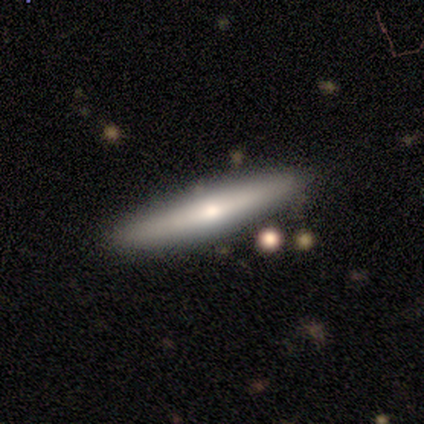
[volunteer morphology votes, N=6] This appears to be a smooth galaxy with no disk features (50%, tied with featured or disk) that is cigar-shaped (100%). Merging: none (83%).